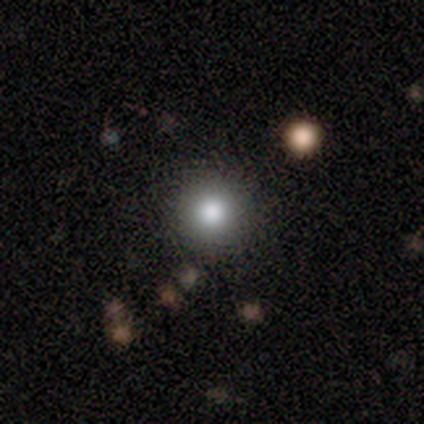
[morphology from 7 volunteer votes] Smooth or featured? smooth (86%)
How rounded? round (100%)
Merging? none (100%)